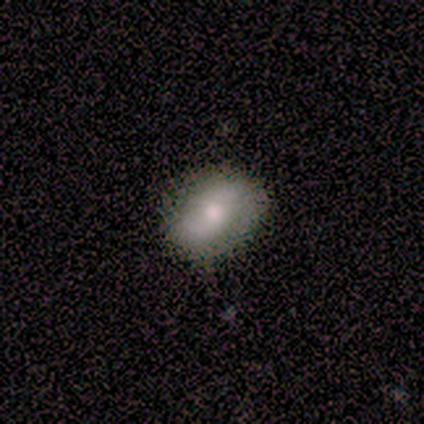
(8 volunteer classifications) A smooth galaxy with no disk features (100%) that is in between round and cigar-shaped (75%). Merging: minor disturbance (75%).